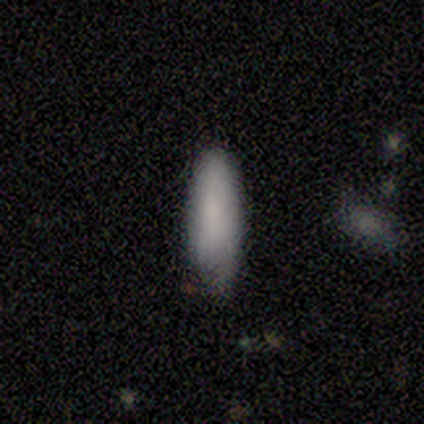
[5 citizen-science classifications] smooth_or_featured: smooth (p=1.00)
how_rounded: in between (p=0.60) [alt: cigar-shaped p=0.40]
merging: none (p=0.60) [alt: minor disturbance p=0.40]